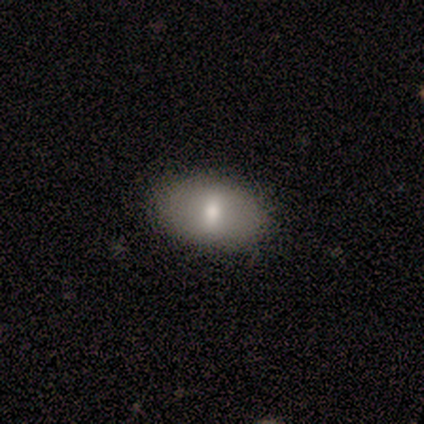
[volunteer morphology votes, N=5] Smooth or featured? smooth (60%)
How rounded? in between (67%)
Merging? none (100%)